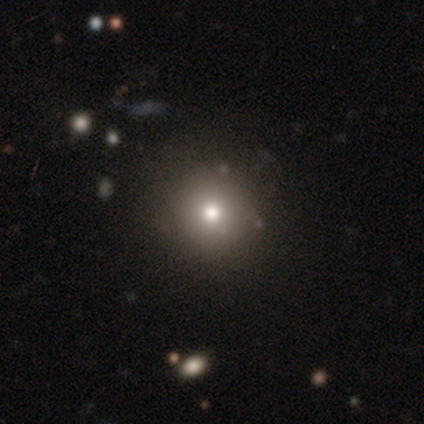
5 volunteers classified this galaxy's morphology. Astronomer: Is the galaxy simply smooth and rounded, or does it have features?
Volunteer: smooth — 60% (runner-up: featured or disk, 40%).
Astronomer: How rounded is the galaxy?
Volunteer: round — 67%.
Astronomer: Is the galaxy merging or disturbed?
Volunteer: none — 80%.